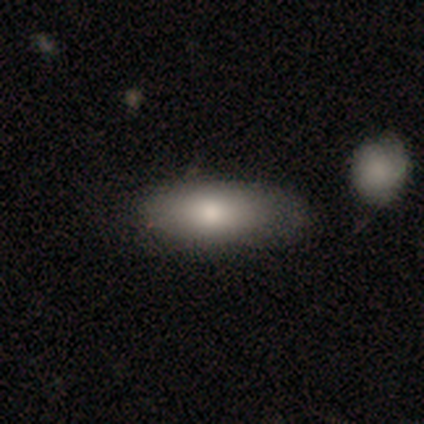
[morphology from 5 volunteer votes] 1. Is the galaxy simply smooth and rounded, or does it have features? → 60% smooth, 40% featured or disk, 0% star or artifact.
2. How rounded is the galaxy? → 100% in between, 0% round, 0% cigar-shaped.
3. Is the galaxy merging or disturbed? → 80% none, 20% major disturbance, 0% minor disturbance, 0% merger.